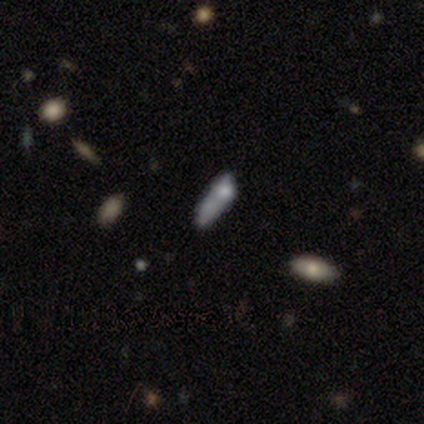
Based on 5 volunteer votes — This appears to be a smooth galaxy with no disk features (100%) that is cigar-shaped (60%). Merging: none (60%).